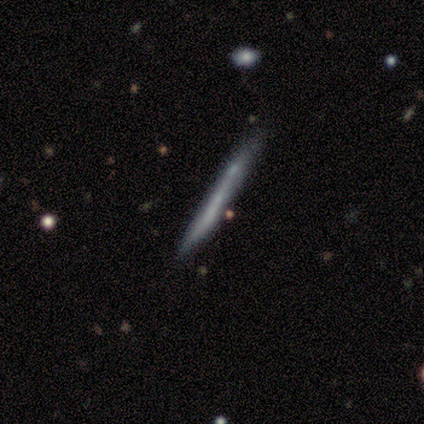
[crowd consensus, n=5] smooth 40% (tied), featured or disk 40% (tied), star or artifact 20%. Down the decision tree: how rounded — cigar-shaped (100%); merging — minor disturbance (50%).